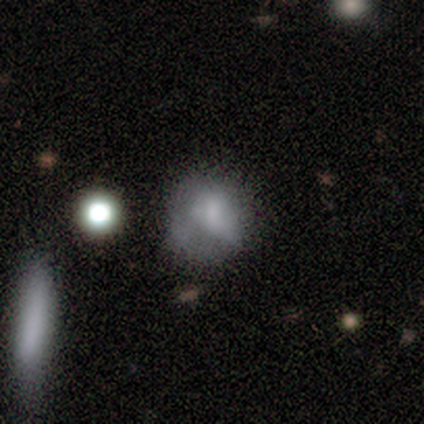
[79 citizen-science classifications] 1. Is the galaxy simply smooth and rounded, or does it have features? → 53% smooth, 39% featured or disk, 8% star or artifact.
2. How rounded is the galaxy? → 62% round, 36% in between, 2% cigar-shaped.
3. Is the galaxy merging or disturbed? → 25% none, 16% minor disturbance, 15% major disturbance, 7% merger.